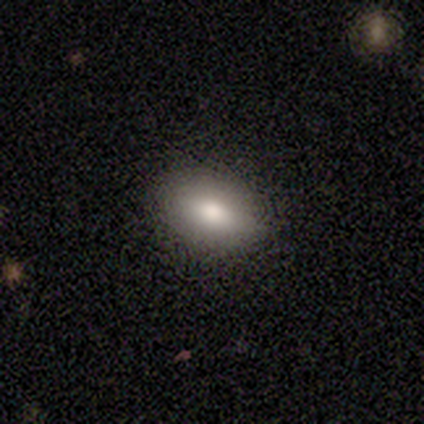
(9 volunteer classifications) smooth 89%, featured or disk 11%, star or artifact 0%. Down the decision tree: how rounded — in between (75%); merging — none (89%).